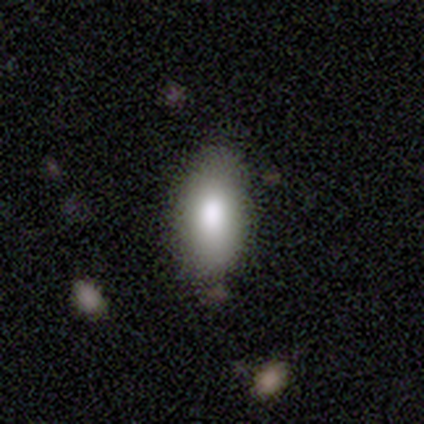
Smooth or featured? 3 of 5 (60%) said smooth. How rounded? 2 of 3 (67%) said in between. Merging? 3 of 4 (75%) said none.